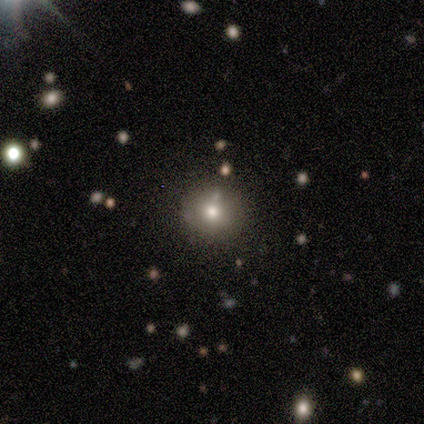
Volunteers were most divided on "smooth or featured": smooth: 60%, featured or disk: 20%, star or artifact: 20%. More confident: how rounded — round (100%); merging — none (100%).